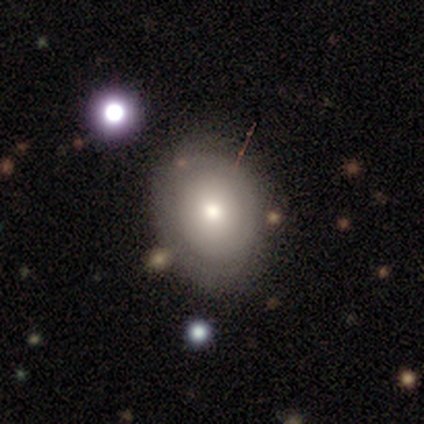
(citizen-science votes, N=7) Morphology: type=smooth (71%); roundness=in between (60%); merging=none (57%).